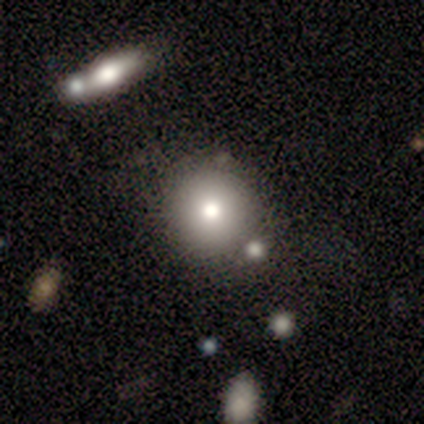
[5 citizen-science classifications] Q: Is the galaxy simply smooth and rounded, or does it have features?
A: smooth — 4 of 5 (80%).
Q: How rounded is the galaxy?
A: round — 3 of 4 (75%).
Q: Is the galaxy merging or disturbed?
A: none — 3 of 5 (60%).